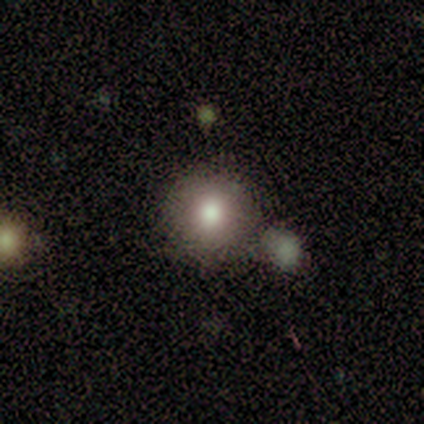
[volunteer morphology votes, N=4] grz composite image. It shows a smooth galaxy with no disk features (75%) that is round (100%). Merging: none (67%).